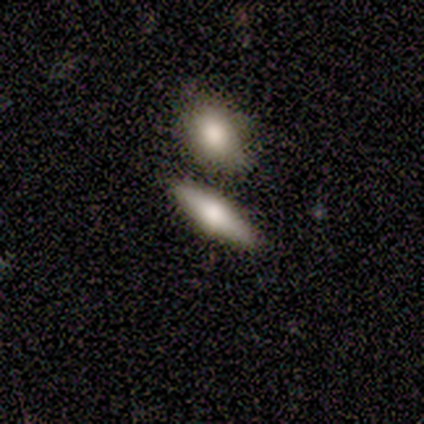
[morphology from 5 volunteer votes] Volunteers were most divided on "smooth or featured": smooth: 60%, featured or disk: 40%, star or artifact: 0%. More confident: merging — none (80%); how rounded — cigar-shaped (67%).